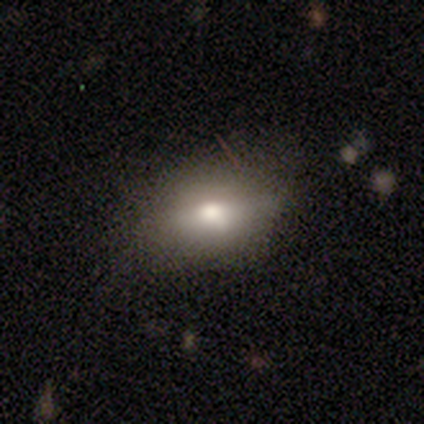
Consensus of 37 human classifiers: Q: Smooth or featured?
A: smooth (84%); runner-up: featured or disk (16%)
Q: How rounded?
A: in between (90%); runner-up: round (6%)
Q: Merging?
A: none (65%); runner-up: minor disturbance (30%)